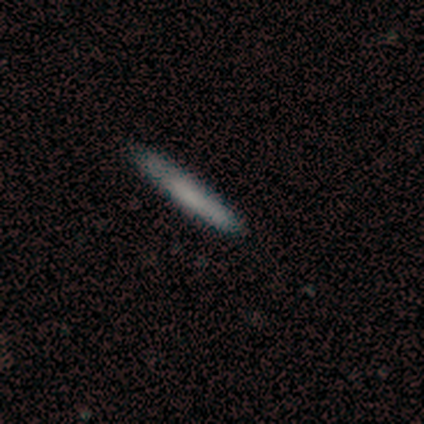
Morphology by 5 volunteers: This appears to be a featured or disk galaxy (80%) viewed edge-on (100%) with no central bulge (100%). Merging: none (100%).